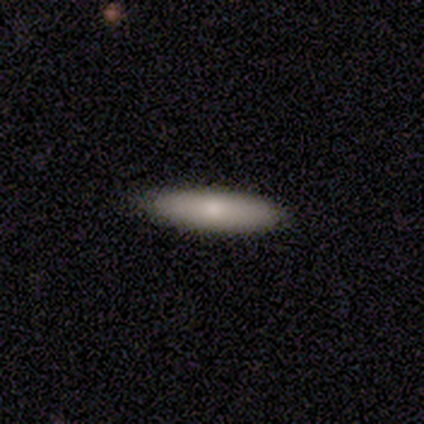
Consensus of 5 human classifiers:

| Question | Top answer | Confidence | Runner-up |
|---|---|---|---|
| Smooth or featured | smooth | 100% | — |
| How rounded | cigar-shaped | 60% | in between (40%) |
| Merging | none | 100% | — |